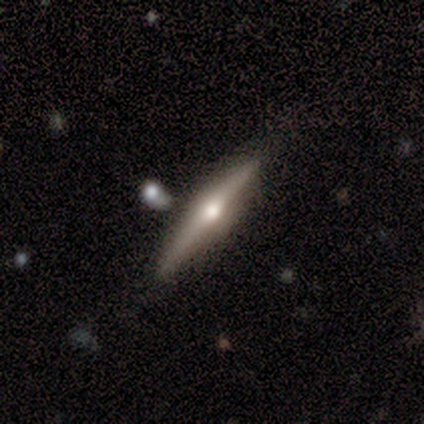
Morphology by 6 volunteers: Q: Smooth or featured?
A: smooth (50%); tied with: featured or disk (50%)
Q: How rounded?
A: cigar-shaped (67%); runner-up: in between (33%)
Q: Merging?
A: none (67%); runner-up: minor disturbance (33%)